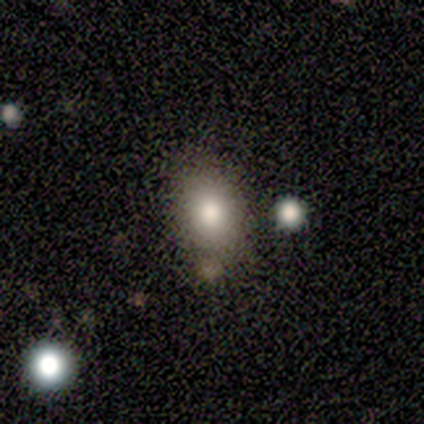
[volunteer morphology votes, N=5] smooth_or_featured: smooth (p=0.80) [alt: star or artifact p=0.20]
how_rounded: in between (p=0.75) [alt: round p=0.25]
merging: none (p=0.75) [alt: minor disturbance p=0.25]